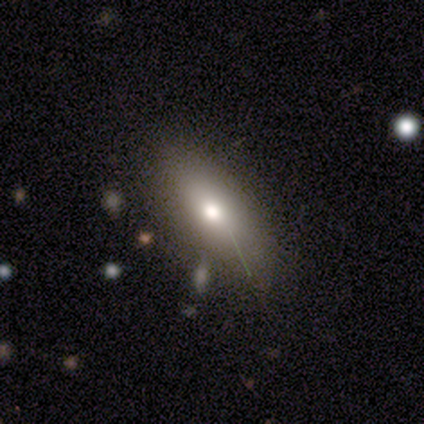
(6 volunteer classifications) smooth-or-featured: smooth: 83% | featured or disk: 17% | star or artifact: 0%
  how-rounded: in between: 100% | round: 0% | cigar-shaped: 0%
  merging: none: 67% | minor disturbance: 17% | merger: 17% | major disturbance: 0%